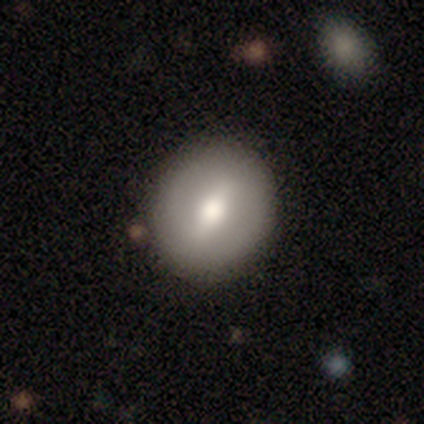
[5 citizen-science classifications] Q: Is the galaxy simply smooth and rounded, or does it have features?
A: smooth — 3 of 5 (60%).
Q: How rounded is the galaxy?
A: round — 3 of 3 (100%).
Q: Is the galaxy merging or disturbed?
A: none — 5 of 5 (100%).